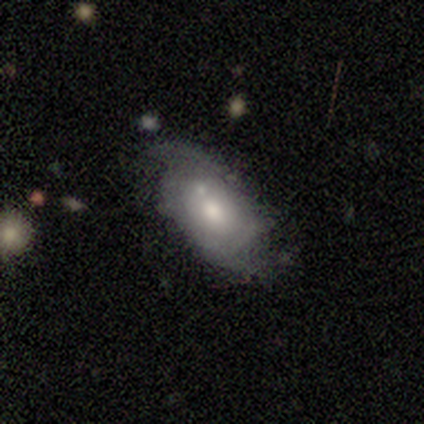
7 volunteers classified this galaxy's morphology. Smooth or featured? 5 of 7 (71%) said featured or disk. Edge-on disk? 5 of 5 (100%) said no. Bar? 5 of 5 (100%) said no. Spiral arms? 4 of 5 (80%) said yes. Spiral winding? 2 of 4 (50%) said tight. Spiral arm count? 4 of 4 (100%) said 2. Bulge size? 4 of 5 (80%) said moderate. Merging? 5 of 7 (71%) said none.